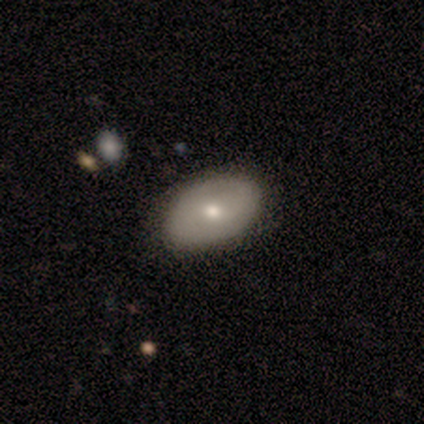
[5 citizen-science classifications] Smooth or featured?
  - smooth: 60% *
  - featured or disk: 20%
  - star or artifact: 20%
How rounded?
  - in between: 100% *
  - round: 0%
  - cigar-shaped: 0%
Merging?
  - none: 75% *
  - minor disturbance: 25%
  - major disturbance: 0%
  - merger: 0%